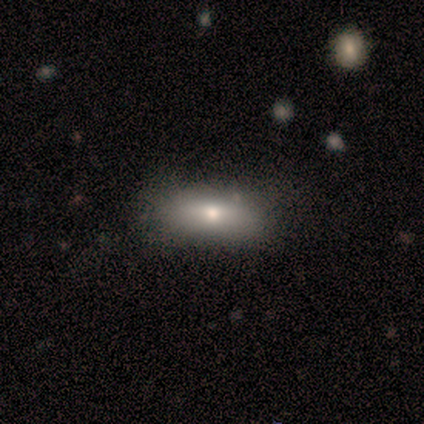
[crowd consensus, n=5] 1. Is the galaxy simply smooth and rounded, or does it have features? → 100% smooth, 0% featured or disk, 0% star or artifact.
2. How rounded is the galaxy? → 60% in between, 20% round, 20% cigar-shaped.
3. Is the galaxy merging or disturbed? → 100% none, 0% minor disturbance, 0% major disturbance, 0% merger.